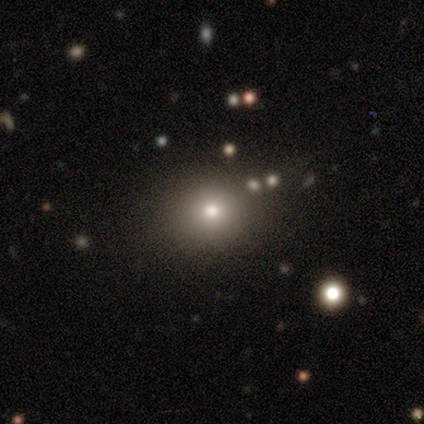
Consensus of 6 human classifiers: A star or artifact, not a galaxy (67%).

Vote fractions:
- Smooth or featured? star or artifact: 67% / smooth: 17% / featured or disk: 17%